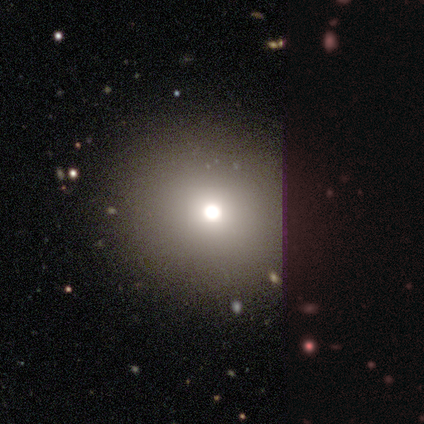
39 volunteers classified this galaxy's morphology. Smooth or featured: smooth — 74% (star or artifact — 15%)
How rounded: round — 83% (in between — 17%)
Merging: none — 91% (major disturbance — 6%)